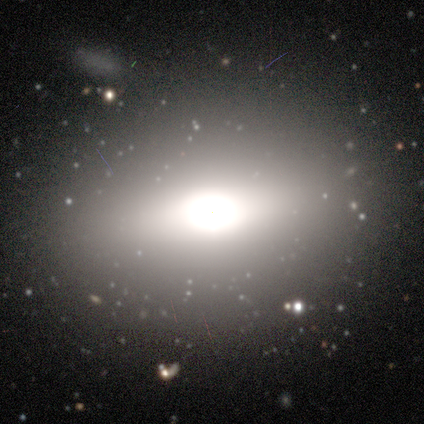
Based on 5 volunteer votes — smooth-or-featured: smooth: 40% (tied) | featured or disk: 40% (tied) | star or artifact: 20%
  how-rounded: round: 50% (tied) | in between: 50% (tied) | cigar-shaped: 0%
  merging: none: 100% | minor disturbance: 0% | major disturbance: 0% | merger: 0%